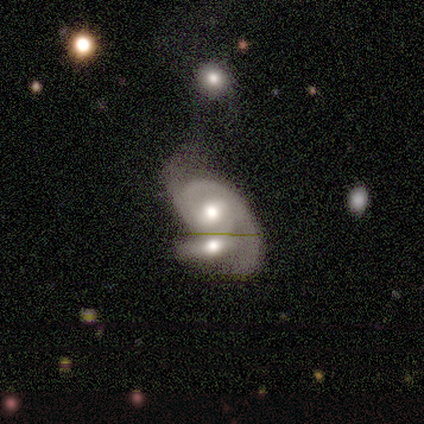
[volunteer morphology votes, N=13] Smooth or featured? featured or disk (69%)
Edge-on disk? no (89%)
Bar? no (62%)
Spiral arms? yes (100%)
Spiral winding? tight (38%, tied with medium)
Spiral arm count? 2 (62%)
Bulge size? moderate (100%)
Merging? merger (100%)